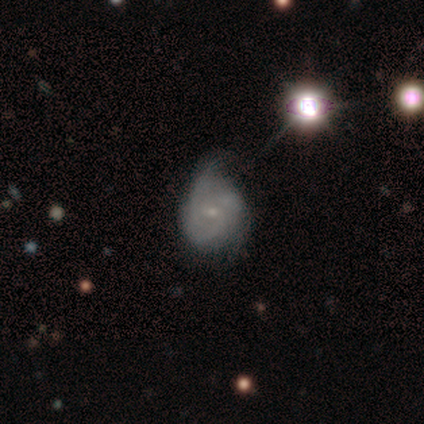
Overall: featured or disk (60%; smooth 20%). Edge-on disk: no (100%). Bar: no (100%). Spiral arms: yes (67%; no 33%). Spiral arm count: 3 (100%). Spiral winding: tight (50%, tied with medium). Bulge size: small (100%). Merging: none (50%; minor disturbance 25%).